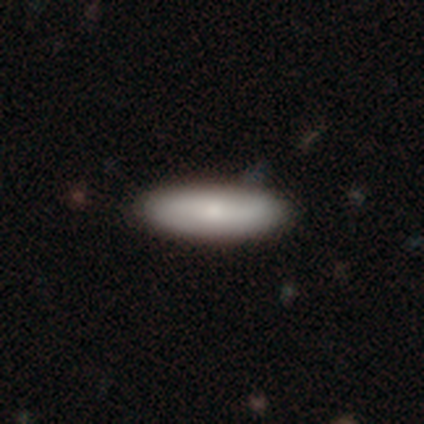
Smooth or featured?
  - smooth: 64% *
  - featured or disk: 22%
  - star or artifact: 13%
How rounded?
  - cigar-shaped: 63% *
  - in between: 37%
  - round: 0%
Merging?
  - none: 87% *
  - minor disturbance: 12%
  - major disturbance: 1%
  - merger: 0%